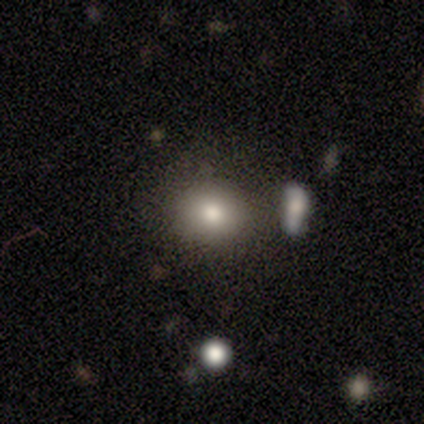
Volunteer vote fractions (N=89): This appears to be a smooth galaxy with no disk features (75%) that is round (72%). Merging: none (78%).